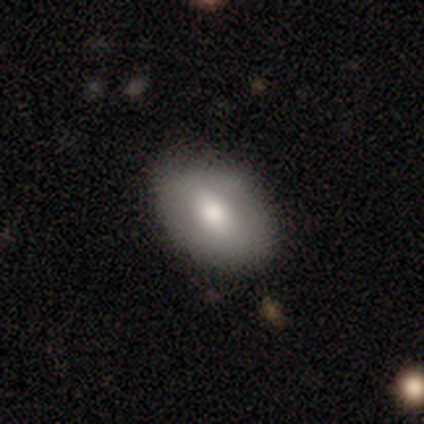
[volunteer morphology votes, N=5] A smooth galaxy with no disk features (80%) that is in between round and cigar-shaped (100%).

Vote fractions:
- Smooth or featured? smooth: 80% / star or artifact: 20% / featured or disk: 0%
- How rounded? in between: 100% / round: 0% / cigar-shaped: 0%
- Merging? none: 75% / minor disturbance: 25% / major disturbance: 0% / merger: 0%